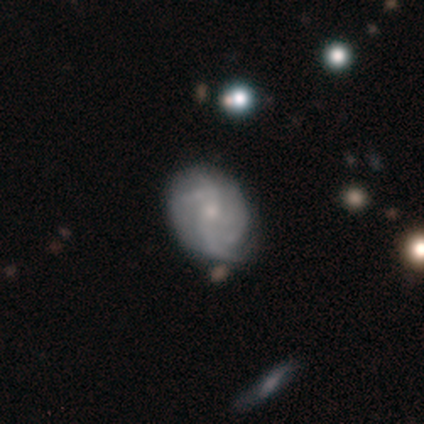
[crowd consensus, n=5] A featured or disk galaxy (100%) with no bar (80%), medium (40%, tied with loose) spiral arms (100%) and a small central bulge (80%).

Vote fractions:
- Smooth or featured? featured or disk: 100% / smooth: 0% / star or artifact: 0%
- Edge-on disk? no: 100% / yes: 0%
- Bar? no: 80% / weak: 20% / strong: 0%
- Spiral arms? yes: 100% / no: 0%
- Spiral winding? medium: 40% (tied) / loose: 40% (tied) / tight: 20%
- Spiral arm count? can't tell: 60% / 1: 20% / 2: 20% / 3: 0% / 4: 0% / more than 4: 0%
- Bulge size? small: 80% / moderate: 20% / dominant: 0% / large: 0% / none: 0%
- Merging? none: 80% / minor disturbance: 20% / major disturbance: 0% / merger: 0%